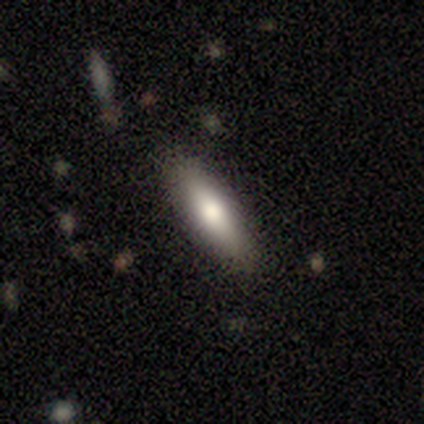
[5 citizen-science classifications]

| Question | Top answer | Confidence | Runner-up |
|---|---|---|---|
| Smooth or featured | smooth | 80% | featured or disk (20%) |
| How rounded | cigar-shaped | 75% | in between (25%) |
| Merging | none | 80% | minor disturbance (20%) |